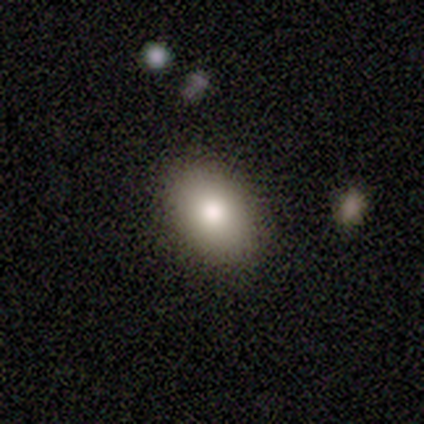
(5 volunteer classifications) Smooth or featured?
  - smooth: 80% *
  - featured or disk: 20%
  - star or artifact: 0%
How rounded?
  - in between: 100% *
  - round: 0%
  - cigar-shaped: 0%
Merging?
  - none: 80% *
  - minor disturbance: 20%
  - major disturbance: 0%
  - merger: 0%